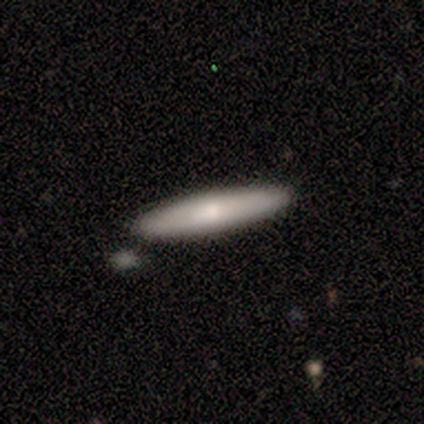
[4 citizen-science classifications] Smooth or featured? 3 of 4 (75%) said smooth. How rounded? 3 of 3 (100%) said cigar-shaped. Merging? 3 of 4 (75%) said none.